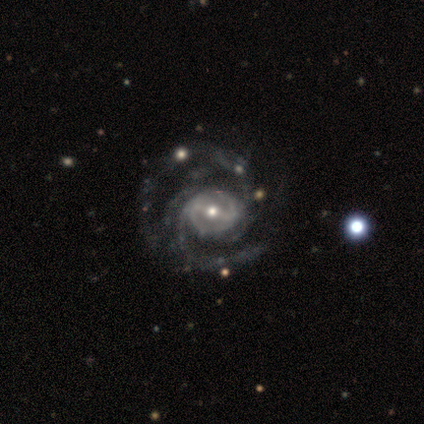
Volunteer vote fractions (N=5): This is clearly a featured or disk galaxy (100%). It is clearly not viewed edge-on (100%). Bar: likely weak (60%). Spiral arm pattern: clearly yes (100%). Spiral arm count: clearly 2 (80%). Spiral winding: likely tight (60%). Central bulge: likely small (60%). Merging: clearly none (100%).